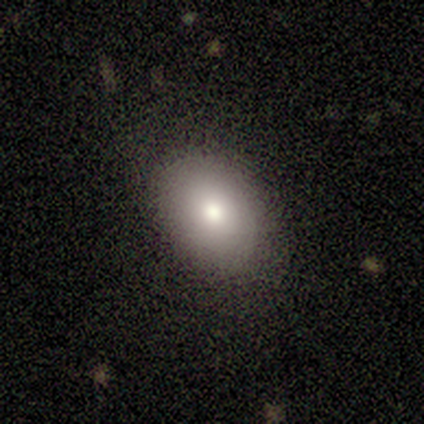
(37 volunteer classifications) This is likely a smooth galaxy (78%). How rounded: likely in between (76%). Merging: likely none (79%).